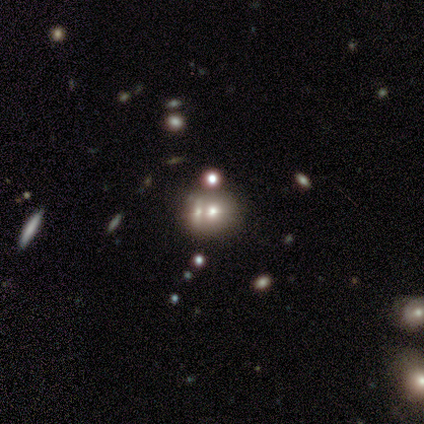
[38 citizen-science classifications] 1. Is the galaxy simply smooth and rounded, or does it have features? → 63% smooth, 18% featured or disk, 18% star or artifact.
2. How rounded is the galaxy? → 58% round, 42% in between, 0% cigar-shaped.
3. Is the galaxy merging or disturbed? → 71% merger, 13% none, 13% minor disturbance, 3% major disturbance.